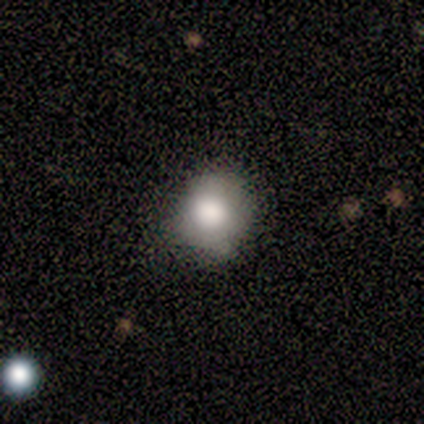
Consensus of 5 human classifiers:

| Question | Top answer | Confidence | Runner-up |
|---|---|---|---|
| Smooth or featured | smooth | 40% | tied: star or artifact (40%) |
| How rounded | round | 100% | — |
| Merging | none | 67% | minor disturbance (33%) |